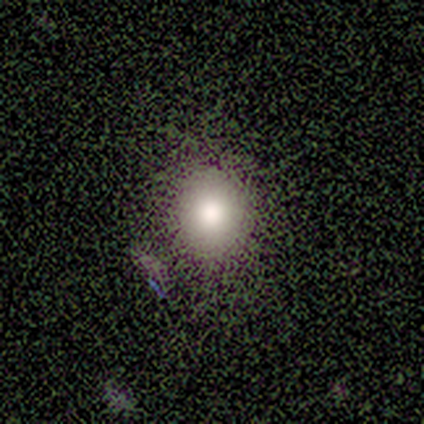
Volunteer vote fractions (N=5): This is clearly a smooth galaxy (80%). How rounded: likely round (75%). Merging: clearly none (100%).